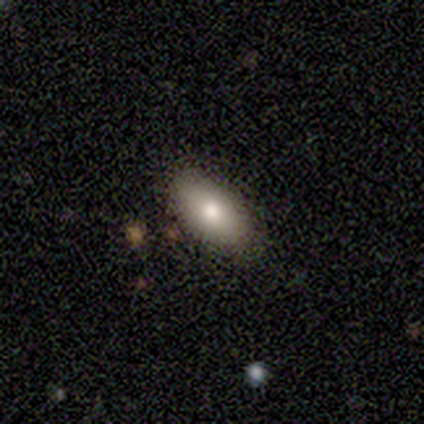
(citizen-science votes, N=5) Smooth or featured? smooth (60%)
How rounded? in between (67%)
Merging? none (80%)